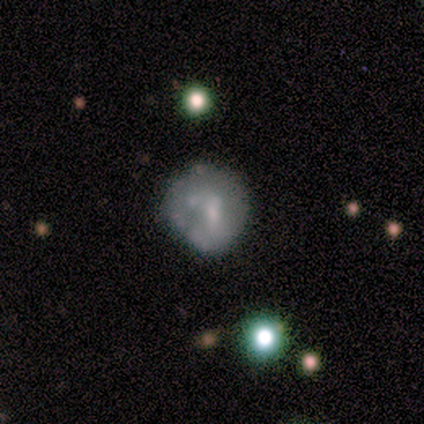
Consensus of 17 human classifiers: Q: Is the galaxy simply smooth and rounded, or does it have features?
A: smooth — 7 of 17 (41%, tied with featured or disk).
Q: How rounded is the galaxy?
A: round — 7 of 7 (100%).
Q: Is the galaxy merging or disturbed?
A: none — 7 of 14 (50%).